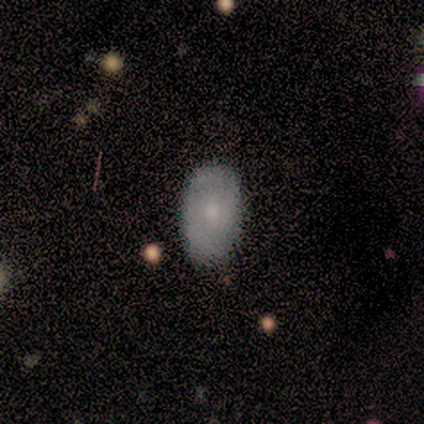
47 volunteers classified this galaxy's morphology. Smooth or featured? smooth (70%)
How rounded? in between (94%)
Merging? none (71%)